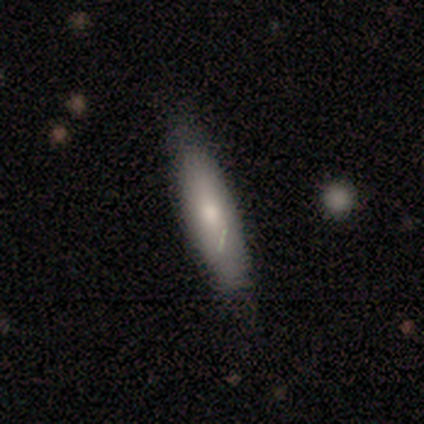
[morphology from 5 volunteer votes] Smooth or featured?
  - smooth: 80% *
  - featured or disk: 20%
  - star or artifact: 0%
How rounded?
  - cigar-shaped: 100% *
  - round: 0%
  - in between: 0%
Merging?
  - none: 60% *
  - minor disturbance: 40%
  - major disturbance: 0%
  - merger: 0%